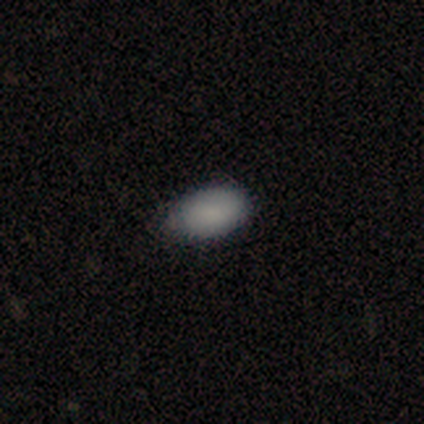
This is clearly a smooth galaxy (100%). How rounded: clearly in between (100%). Merging: clearly none (80%).